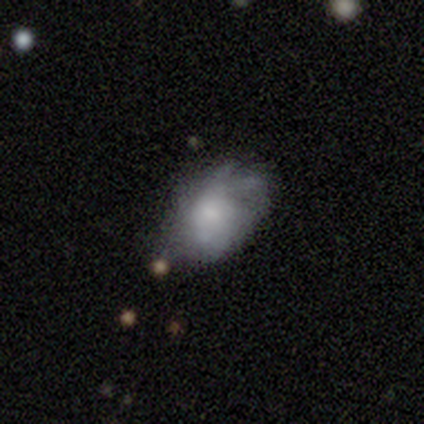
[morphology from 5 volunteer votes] Smooth or featured? 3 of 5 (60%) said featured or disk. Edge-on disk? 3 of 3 (100%) said no. Bar? 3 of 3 (100%) said no. Spiral arms? 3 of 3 (100%) said no. Bulge size? 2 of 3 (67%) said moderate. Merging? 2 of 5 (40%, tied with minor disturbance) said none.